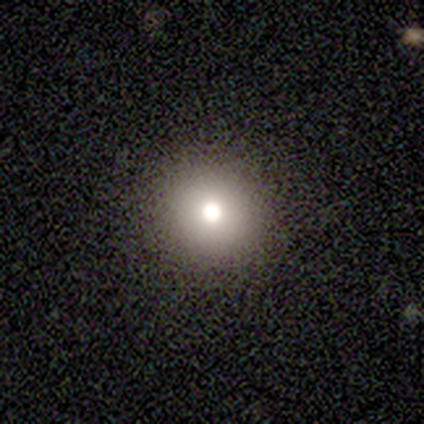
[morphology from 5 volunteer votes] smooth-or-featured: smooth: 80% | featured or disk: 20% | star or artifact: 0%
  how-rounded: round: 75% | in between: 25% | cigar-shaped: 0%
  merging: none: 100% | minor disturbance: 0% | major disturbance: 0% | merger: 0%